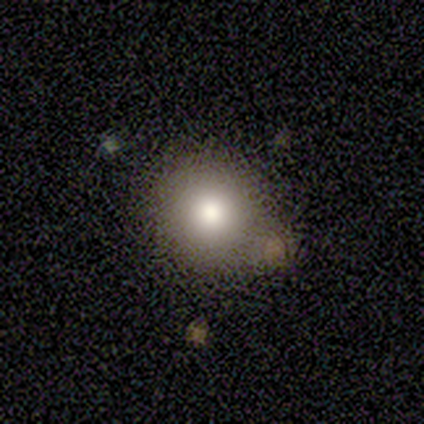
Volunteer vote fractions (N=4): Smooth or featured? smooth (100%)
How rounded? round (100%)
Merging? none (75%)